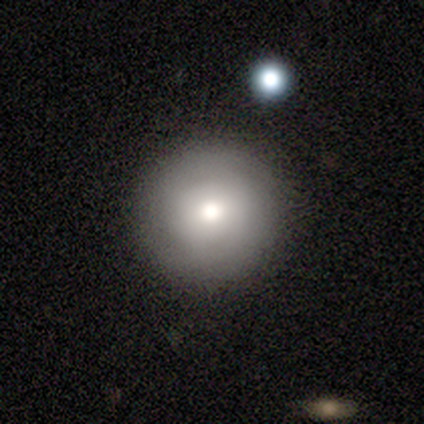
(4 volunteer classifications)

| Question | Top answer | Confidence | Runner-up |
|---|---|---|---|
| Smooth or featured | featured or disk | 75% | smooth (25%) |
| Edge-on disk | no | 67% | yes (33%) |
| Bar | no | 100% | — |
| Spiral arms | yes | 50% | tied: no (50%) |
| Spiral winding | tight | 100% | — |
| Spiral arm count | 2 | 100% | — |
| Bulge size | moderate | 100% | — |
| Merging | none | 75% | minor disturbance (25%) |